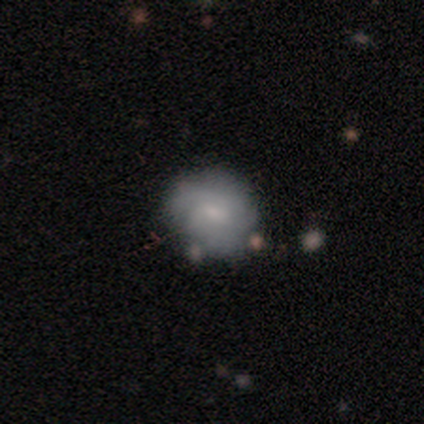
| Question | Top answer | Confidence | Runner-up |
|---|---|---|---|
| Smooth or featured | smooth | 67% | featured or disk (33%) |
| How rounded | round | 100% | — |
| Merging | none | 67% | minor disturbance (17%) |